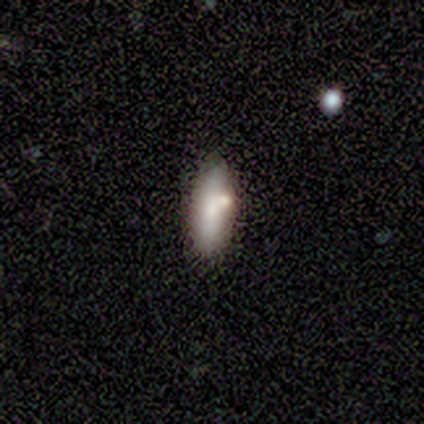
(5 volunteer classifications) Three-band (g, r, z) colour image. It shows a smooth galaxy with no disk features (80%) that is in between round and cigar-shaped (50%, tied with cigar-shaped). Merging: none (40%, tied with merger).